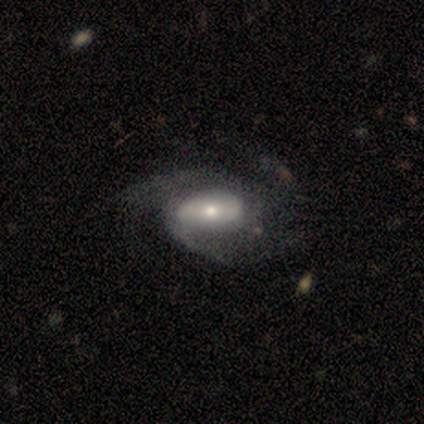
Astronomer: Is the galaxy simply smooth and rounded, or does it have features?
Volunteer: featured or disk — 100%.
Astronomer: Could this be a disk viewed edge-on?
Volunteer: no — 100%.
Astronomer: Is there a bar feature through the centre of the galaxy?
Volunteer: no — 67%.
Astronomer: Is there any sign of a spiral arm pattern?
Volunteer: yes — 56% (runner-up: no, 44%).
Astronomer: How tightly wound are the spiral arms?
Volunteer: medium — 100%.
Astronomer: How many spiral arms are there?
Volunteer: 2 — 40%, tied with can't tell at 40%.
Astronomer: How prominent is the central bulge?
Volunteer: moderate — 56% (runner-up: small, 44%).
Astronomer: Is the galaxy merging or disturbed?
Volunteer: none — 67%.